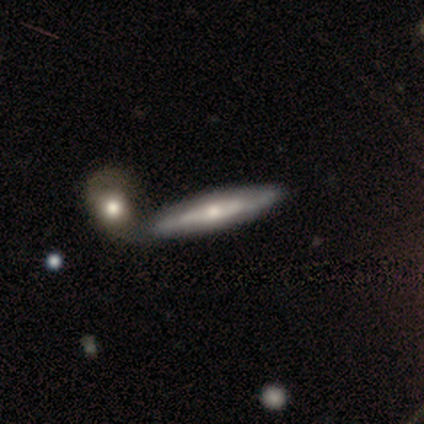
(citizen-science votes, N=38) A featured or disk galaxy (68%) viewed edge-on (88%) with a rounded central bulge (70%). Merging: none (53%).